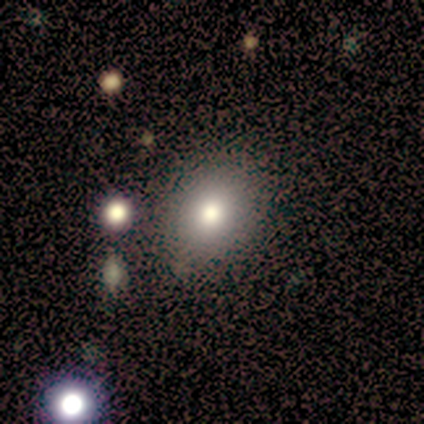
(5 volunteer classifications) Smooth or featured: smooth — 100%
How rounded: in between — 60% (round — 40%)
Merging: minor disturbance — 60% (none — 40%)